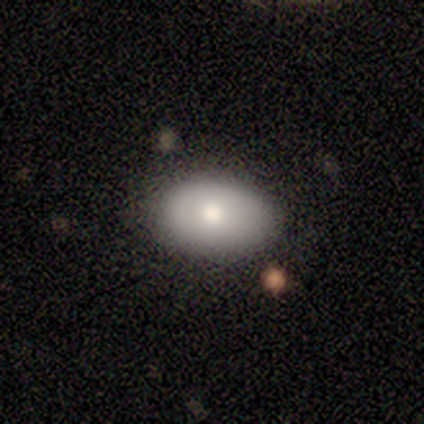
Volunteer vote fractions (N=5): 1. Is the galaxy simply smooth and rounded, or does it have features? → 40% smooth (tied), 40% featured or disk (tied), 20% star or artifact.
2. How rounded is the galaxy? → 100% round, 0% in between, 0% cigar-shaped.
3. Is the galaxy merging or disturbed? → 75% none, 25% minor disturbance, 0% major disturbance, 0% merger.